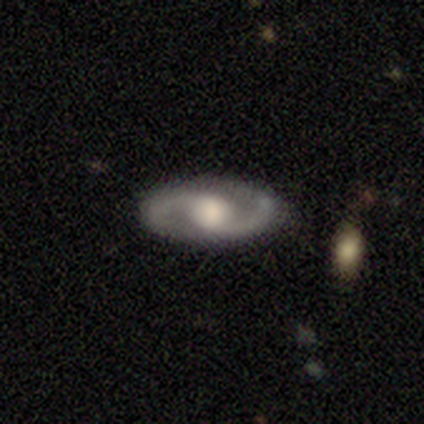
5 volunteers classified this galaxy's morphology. A featured or disk galaxy (100%) with a weak bar (60%), 2 (100%) tight (40%, tied with medium) spiral arms (100%) and a moderate central bulge (60%). Merging: none (100%).